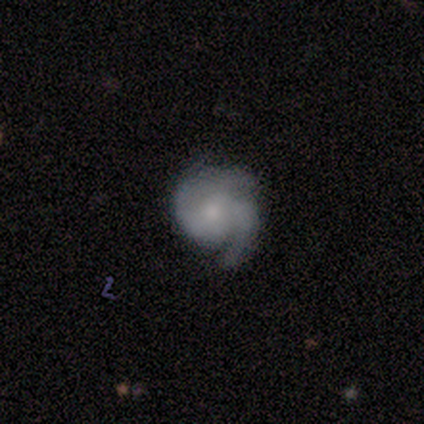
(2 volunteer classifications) Volunteers were most divided on "bar" (2-way tie): weak: 50%, no: 50%, strong: 0%; "spiral winding" (2-way tie): tight: 50%, medium: 50%, loose: 0%; "bulge size" (2-way tie): small: 50%, none: 50%, dominant: 0%, large: 0%, moderate: 0%; "merging" (2-way tie): none: 50%, major disturbance: 50%, minor disturbance: 0%, merger: 0%. More confident: smooth or featured — featured or disk (100%); edge-on disk — no (100%); spiral arms — yes (100%); spiral arm count — 2 (100%).